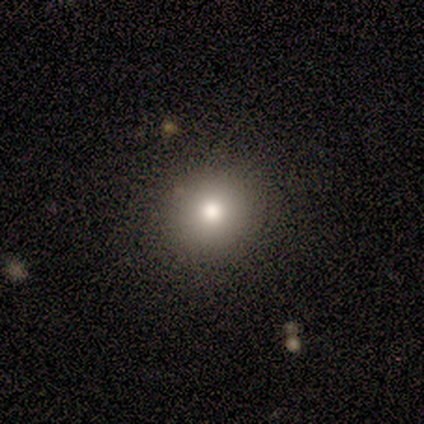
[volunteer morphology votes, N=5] A smooth galaxy with no disk features (60%) that is round (100%).

Vote fractions:
- Smooth or featured? smooth: 60% / featured or disk: 20% / star or artifact: 20%
- How rounded? round: 100% / in between: 0% / cigar-shaped: 0%
- Merging? none: 75% / minor disturbance: 25% / major disturbance: 0% / merger: 0%